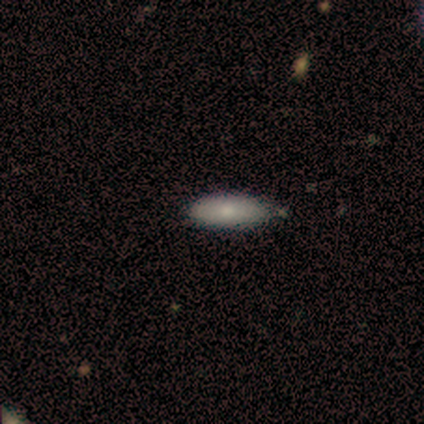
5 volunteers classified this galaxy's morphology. A smooth galaxy with no disk features (80%) that is in between round and cigar-shaped (50%, tied with cigar-shaped).

Vote fractions:
- Smooth or featured? smooth: 80% / featured or disk: 20% / star or artifact: 0%
- How rounded? in between: 50% (tied) / cigar-shaped: 50% (tied) / round: 0%
- Merging? none: 80% / minor disturbance: 20% / major disturbance: 0% / merger: 0%